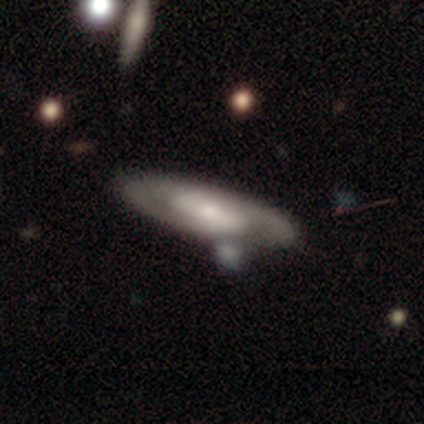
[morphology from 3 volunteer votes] Smooth or featured?
  - featured or disk: 100% *
  - smooth: 0%
  - star or artifact: 0%
Edge-on disk?
  - no: 100% *
  - yes: 0%
Bar?
  - weak: 67% *
  - strong: 33%
  - no: 0%
Spiral arms?
  - yes: 100% *
  - no: 0%
Spiral winding?
  - loose: 67% *
  - medium: 33%
  - tight: 0%
Spiral arm count?
  - 2: 67% *
  - 1: 33%
  - 3: 0%
  - 4: 0%
  - more than 4: 0%
  - can't tell: 0%
Bulge size?
  - small: 67% *
  - moderate: 33%
  - dominant: 0%
  - large: 0%
  - none: 0%
Merging?
  - none: 67% *
  - minor disturbance: 33%
  - major disturbance: 0%
  - merger: 0%